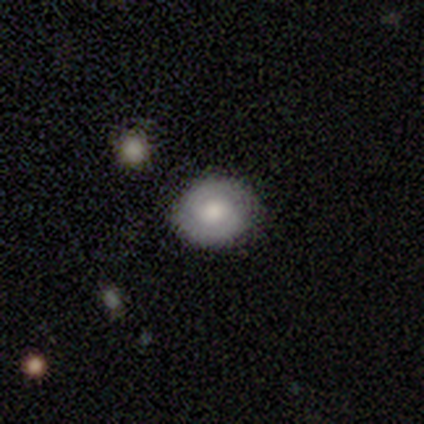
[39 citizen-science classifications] A featured or disk galaxy (44%) with no bar (69%), 2 (77%) tight (92%) spiral arms (81%) and a moderate central bulge (62%).

Vote fractions:
- Smooth or featured? featured or disk: 44% / smooth: 41% / star or artifact: 15%
- Edge-on disk? no: 94% / yes: 6%
- Bar? no: 69% / weak: 31% / strong: 0%
- Spiral arms? yes: 81% / no: 19%
- Spiral winding? tight: 92% / medium: 8% / loose: 0%
- Spiral arm count? 2: 77% / can't tell: 23% / 1: 0% / 3: 0% / 4: 0% / more than 4: 0%
- Bulge size? moderate: 62% / large: 25% / dominant: 6% / small: 6% / none: 0%
- Merging? none: 91% / minor disturbance: 9% / major disturbance: 0% / merger: 0%